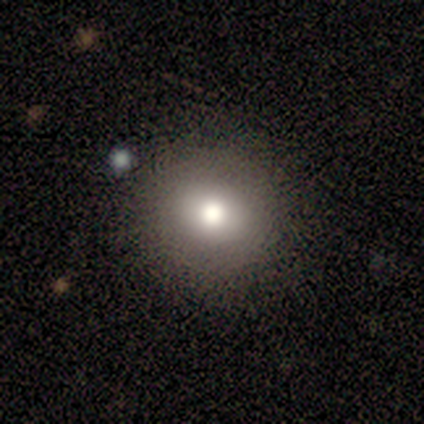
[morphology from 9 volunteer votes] Volunteers were most divided on "how rounded": round: 88%, in between: 12%, cigar-shaped: 0%. More confident: merging — none (100%); smooth or featured — smooth (89%).